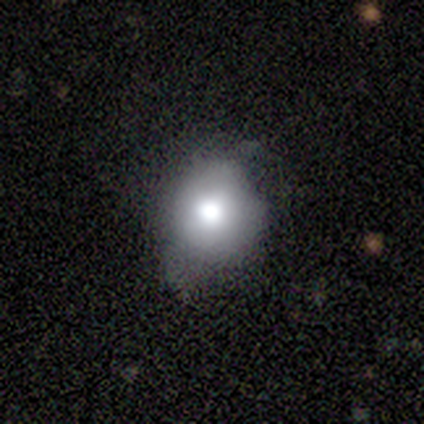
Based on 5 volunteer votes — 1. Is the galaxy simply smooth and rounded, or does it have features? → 60% smooth, 20% featured or disk, 20% star or artifact.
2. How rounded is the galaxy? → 33% round (tied), 33% in between (tied), 33% cigar-shaped (tied).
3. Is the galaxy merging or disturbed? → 75% none, 25% minor disturbance, 0% major disturbance, 0% merger.